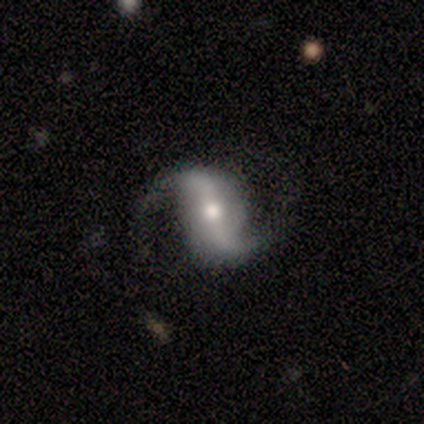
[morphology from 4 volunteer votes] featured or disk 50% (tied), star or artifact 50% (tied), smooth 0%. Down the decision tree: edge-on disk — no (100%); bar — strong (50%, tied with weak); spiral arms — yes (100%); spiral arm count — 2 (100%); spiral winding — medium (50%, tied with loose); bulge size — moderate (50%, tied with none); merging — none (50%, tied with merger).